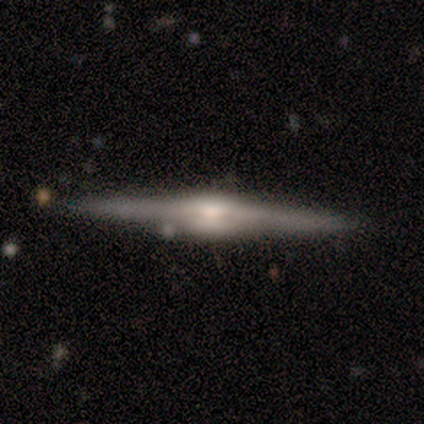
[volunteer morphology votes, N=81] A featured or disk galaxy (89%) viewed edge-on (100%) with a rounded central bulge (74%).

Vote fractions:
- Smooth or featured? featured or disk: 89% / smooth: 6% / star or artifact: 5%
- Edge-on disk? yes: 100% / no: 0%
- Edge-on bulge? rounded: 74% / boxy: 26% / none: 0%
- Merging? none: 90% / minor disturbance: 9% / merger: 1% / major disturbance: 0%